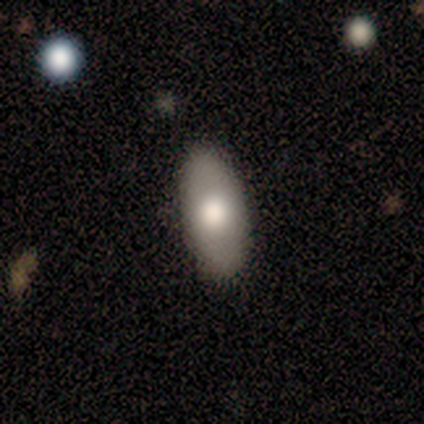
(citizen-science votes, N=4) Smooth or featured? 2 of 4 (50%, tied with featured or disk) said smooth. How rounded? 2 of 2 (100%) said in between. Merging? 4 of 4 (100%) said none.